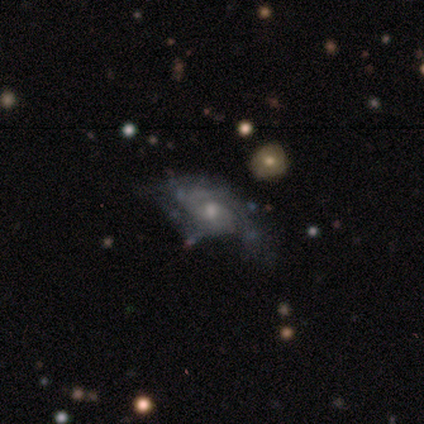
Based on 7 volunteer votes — This is clearly a featured or disk galaxy (86%). It is clearly not viewed edge-on (100%). Bar: likely no (67%). Spiral arm pattern: likely yes (67%). Spiral arm count: likely 2 (75%). Spiral winding: possibly medium (50%). Central bulge: likely moderate (67%). Merging: possibly none (57%).